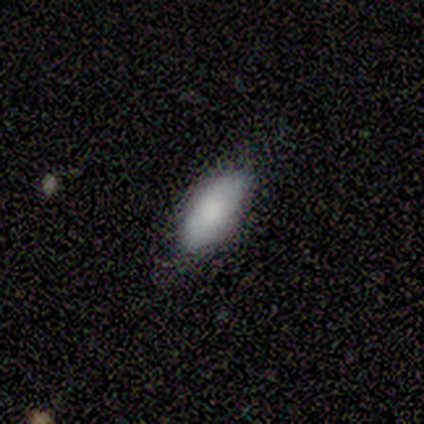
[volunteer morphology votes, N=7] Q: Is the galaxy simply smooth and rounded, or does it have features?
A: smooth — 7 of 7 (100%).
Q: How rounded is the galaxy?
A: in between — 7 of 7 (100%).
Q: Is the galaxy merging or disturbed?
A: none — 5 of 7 (71%).